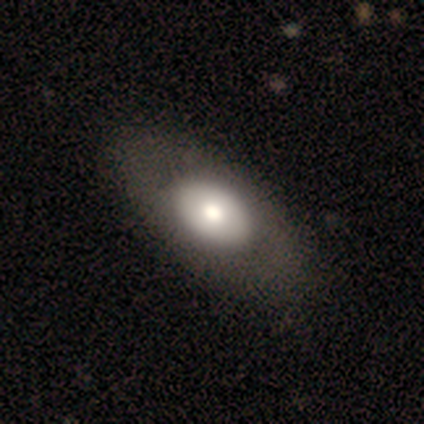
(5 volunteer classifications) A featured or disk galaxy (60%) with no bar (100%), no spiral arms (67%) and a moderate central bulge (67%).

Vote fractions:
- Smooth or featured? featured or disk: 60% / smooth: 40% / star or artifact: 0%
- Edge-on disk? no: 100% / yes: 0%
- Bar? no: 100% / strong: 0% / weak: 0%
- Spiral arms? no: 67% / yes: 33%
- Bulge size? moderate: 67% / large: 33% / dominant: 0% / small: 0% / none: 0%
- Merging? none: 100% / minor disturbance: 0% / major disturbance: 0% / merger: 0%